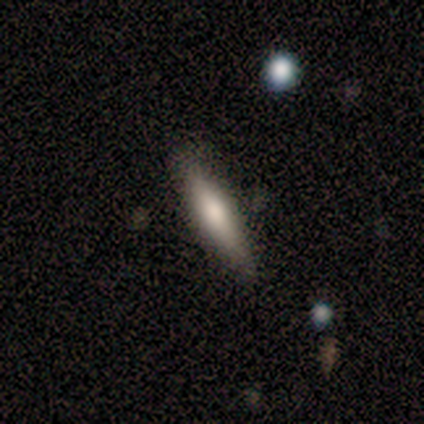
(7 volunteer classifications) smooth_or_featured: smooth (p=0.71) [alt: featured or disk p=0.29]
how_rounded: cigar-shaped (p=1.00)
merging: none (p=0.57) [alt: minor disturbance p=0.43]